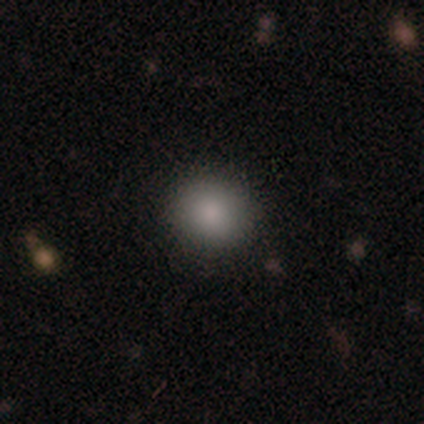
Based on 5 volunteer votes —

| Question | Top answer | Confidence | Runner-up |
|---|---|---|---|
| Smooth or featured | smooth | 60% | star or artifact (40%) |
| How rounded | round | 100% | — |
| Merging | none | 100% | — |